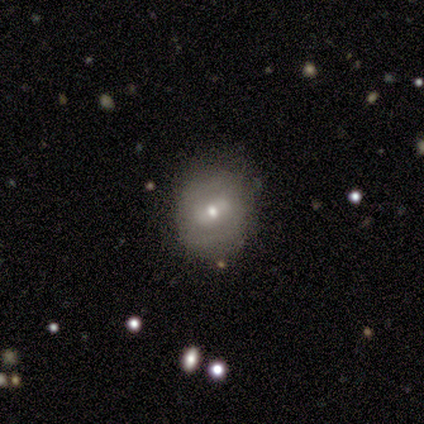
This is likely a smooth galaxy (75%). How rounded: likely round (67%). Merging: clearly none (100%).